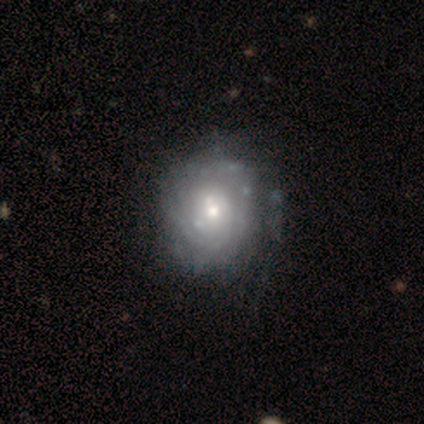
Q: Smooth or featured?
A: featured or disk (80%); runner-up: star or artifact (20%)
Q: Edge-on disk?
A: no (100%)
Q: Bar?
A: no (100%)
Q: Spiral arms?
A: yes (50%); tied with: no (50%)
Q: Spiral winding?
A: tight (100%)
Q: Spiral arm count?
A: can't tell (100%)
Q: Bulge size?
A: moderate (75%); runner-up: small (25%)
Q: Merging?
A: none (50%); runner-up: minor disturbance (25%)